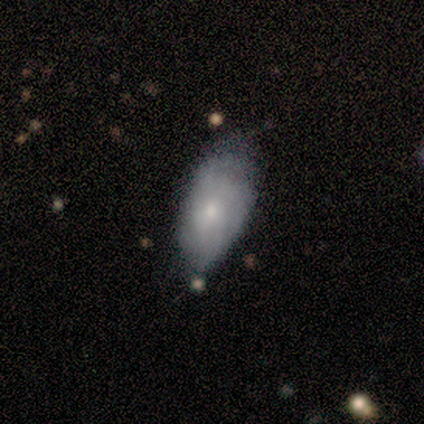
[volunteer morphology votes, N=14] type=smooth (64%); roundness=in between (100%); merging=minor disturbance (50%).